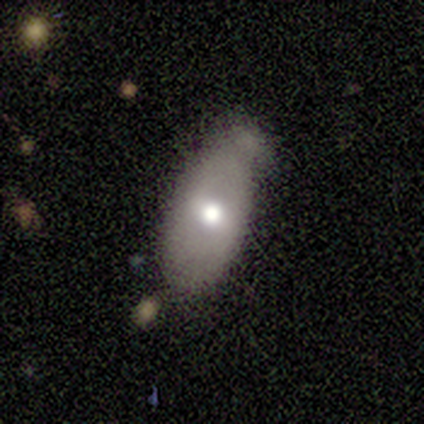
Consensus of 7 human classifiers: Smooth or featured? smooth (57%)
How rounded? in between (100%)
Merging? minor disturbance (57%)